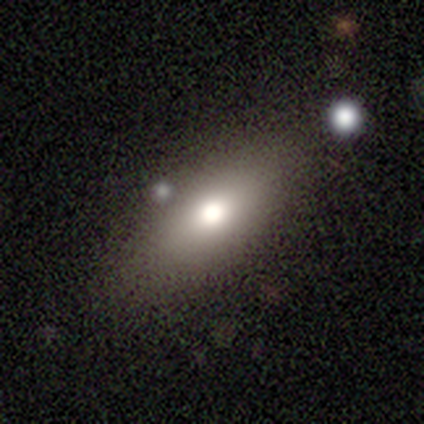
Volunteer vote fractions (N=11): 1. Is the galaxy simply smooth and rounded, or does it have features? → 73% smooth, 18% featured or disk, 9% star or artifact.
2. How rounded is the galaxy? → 88% in between, 12% cigar-shaped, 0% round.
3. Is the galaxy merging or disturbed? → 100% none, 0% minor disturbance, 0% major disturbance, 0% merger.